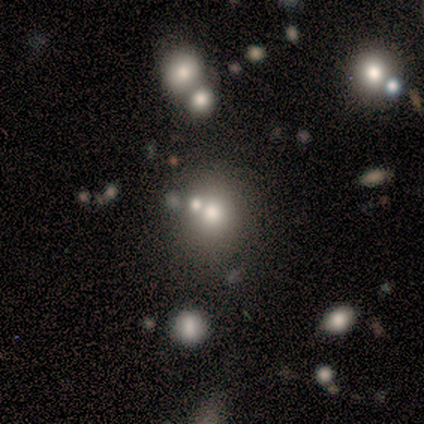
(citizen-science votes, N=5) A smooth galaxy with no disk features (40%, tied with featured or disk) that is round (100%).

Vote fractions:
- Smooth or featured? smooth: 40% (tied) / featured or disk: 40% (tied) / star or artifact: 20%
- How rounded? round: 100% / in between: 0% / cigar-shaped: 0%
- Merging? merger: 75% / major disturbance: 25% / none: 0% / minor disturbance: 0%